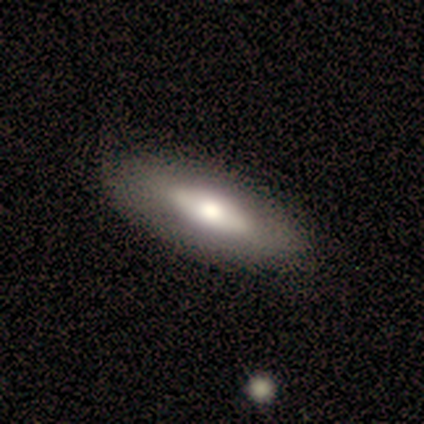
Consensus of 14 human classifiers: smooth_or_featured: smooth (p=0.64) [alt: featured or disk p=0.36]
how_rounded: in between (p=1.00)
merging: none (p=0.93) [alt: minor disturbance p=0.07]